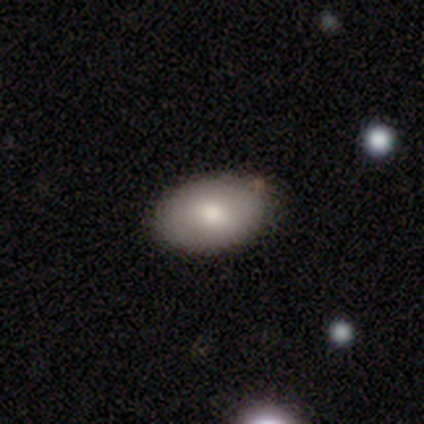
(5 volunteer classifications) Smooth or featured? 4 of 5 (80%) said smooth. How rounded? 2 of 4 (50%, tied with in between) said round. Merging? 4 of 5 (80%) said none.